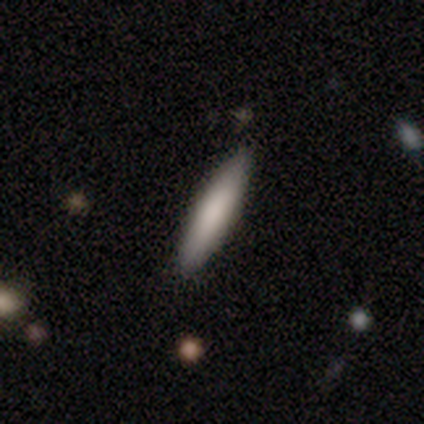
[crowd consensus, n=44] This is likely a smooth galaxy (73%). How rounded: clearly cigar-shaped (94%). Merging: clearly none (80%).